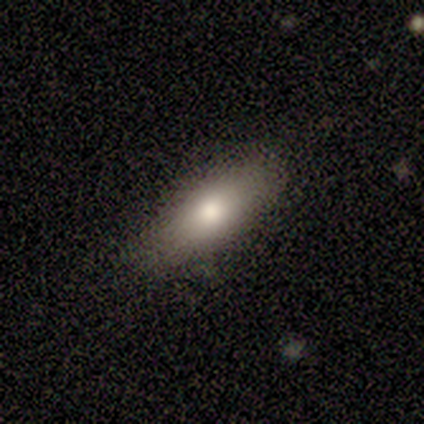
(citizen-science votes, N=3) A smooth galaxy with no disk features (67%) that is in between round and cigar-shaped (50%, tied with cigar-shaped).

Vote fractions:
- Smooth or featured? smooth: 67% / featured or disk: 33% / star or artifact: 0%
- How rounded? in between: 50% (tied) / cigar-shaped: 50% (tied) / round: 0%
- Merging? none: 67% / minor disturbance: 33% / major disturbance: 0% / merger: 0%